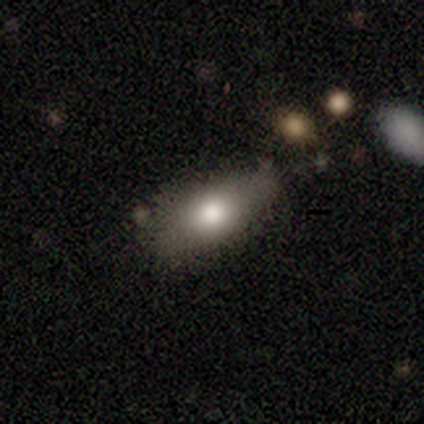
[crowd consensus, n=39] Q: Smooth or featured?
A: smooth (79%); runner-up: featured or disk (10%)
Q: How rounded?
A: in between (77%); runner-up: cigar-shaped (19%)
Q: Merging?
A: none (74%); runner-up: minor disturbance (20%)